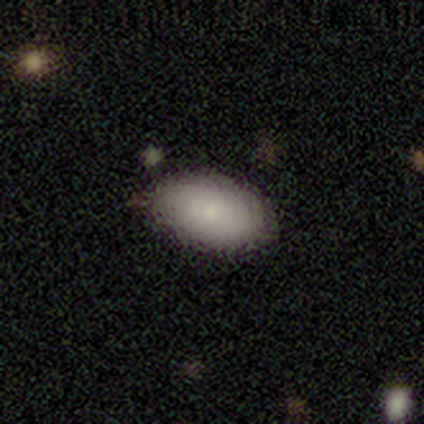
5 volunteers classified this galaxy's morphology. Smooth or featured?
  - smooth: 80% *
  - featured or disk: 20%
  - star or artifact: 0%
How rounded?
  - in between: 75% *
  - cigar-shaped: 25%
  - round: 0%
Merging?
  - none: 60% *
  - minor disturbance: 20%
  - merger: 20%
  - major disturbance: 0%